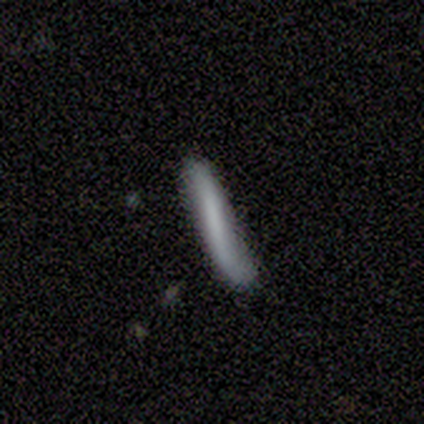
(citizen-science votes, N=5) A smooth galaxy with no disk features (40%, tied with featured or disk) that is cigar-shaped (100%).

Vote fractions:
- Smooth or featured? smooth: 40% (tied) / featured or disk: 40% (tied) / star or artifact: 20%
- How rounded? cigar-shaped: 100% / round: 0% / in between: 0%
- Merging? major disturbance: 50% / none: 25% / minor disturbance: 25% / merger: 0%